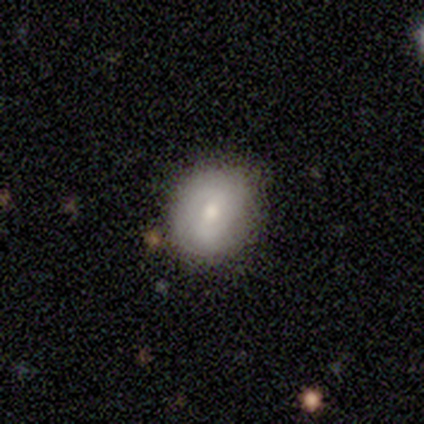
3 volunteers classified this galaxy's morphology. A smooth galaxy with no disk features (67%) that is round (100%). Merging: minor disturbance (67%).